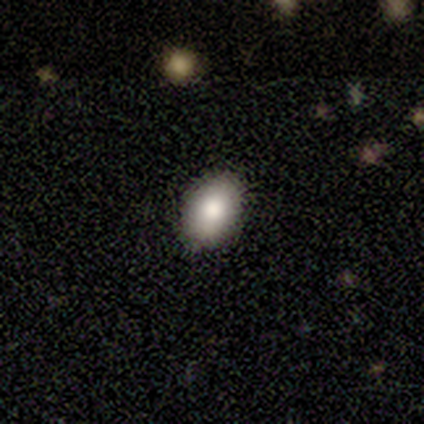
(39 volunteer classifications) Smooth or featured?
  - smooth: 74% *
  - featured or disk: 23%
  - star or artifact: 3%
How rounded?
  - in between: 79% *
  - round: 21%
  - cigar-shaped: 0%
Merging?
  - none: 79% *
  - minor disturbance: 16%
  - major disturbance: 5%
  - merger: 0%